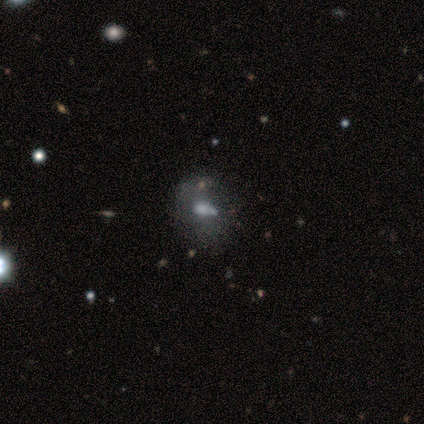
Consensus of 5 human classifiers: smooth 40% (tied), featured or disk 40% (tied), star or artifact 20%. Down the decision tree: how rounded — round (50%, tied with in between); merging — minor disturbance (50%, tied with merger).